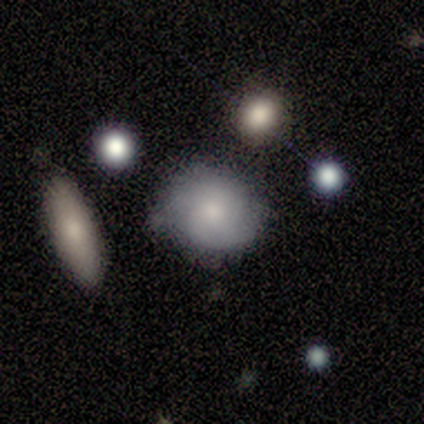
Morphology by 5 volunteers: This appears to be a featured or disk galaxy (60%) with no bar (67%), tight (67%) spiral arms (100%) and a moderate central bulge (67%). Merging: none (60%).